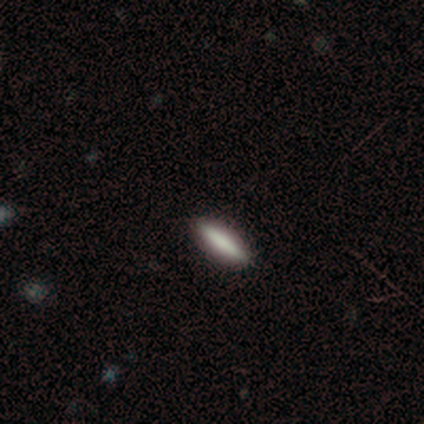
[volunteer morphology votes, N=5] smooth 60%, featured or disk 20%, star or artifact 20%. Down the decision tree: how rounded — cigar-shaped (67%); merging — none (75%).